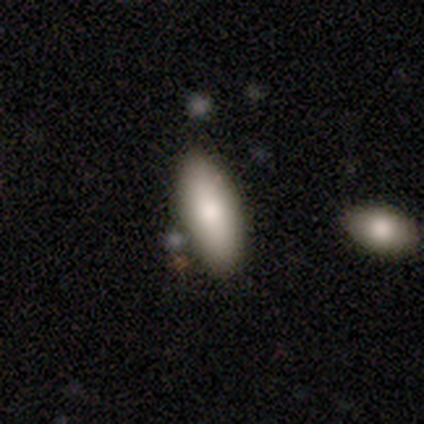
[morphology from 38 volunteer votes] Overall: smooth (76%). How rounded: in between (86%). Merging: none (91%).